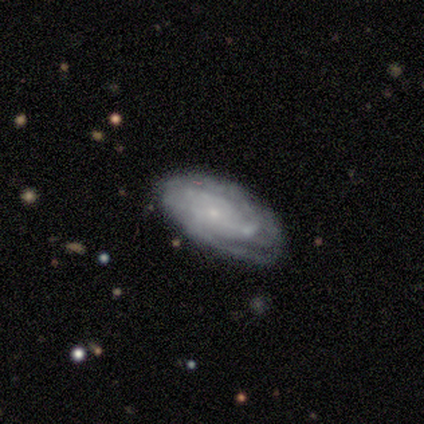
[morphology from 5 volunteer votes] Q: Smooth or featured?
A: featured or disk (80%); runner-up: smooth (20%)
Q: Edge-on disk?
A: no (100%)
Q: Bar?
A: no (100%)
Q: Spiral arms?
A: yes (50%); tied with: no (50%)
Q: Spiral winding?
A: tight (100%)
Q: Spiral arm count?
A: can't tell (100%)
Q: Bulge size?
A: small (75%); runner-up: moderate (25%)
Q: Merging?
A: none (60%); runner-up: minor disturbance (20%)